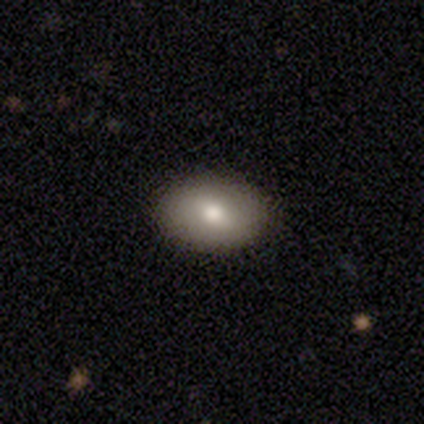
Smooth or featured? smooth (75%)
How rounded? in between (87%)
Merging? none (87%)